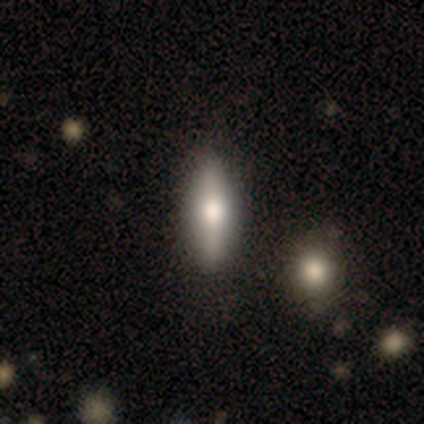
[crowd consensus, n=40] This is likely a smooth galaxy (68%). How rounded: possibly cigar-shaped (56%). Merging: likely none (78%).